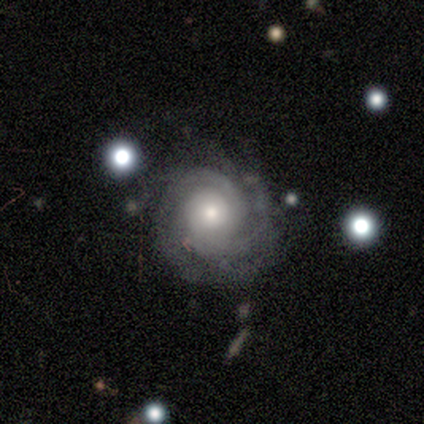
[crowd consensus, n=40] Overall: featured or disk (92%). Edge-on disk: no (100%). Bar: no (81%). Spiral arms: yes (100%). Spiral arm count: can't tell (38%; 2 27%). Spiral winding: tight (76%). Bulge size: moderate (65%). Merging: none (61%; minor disturbance 26%).